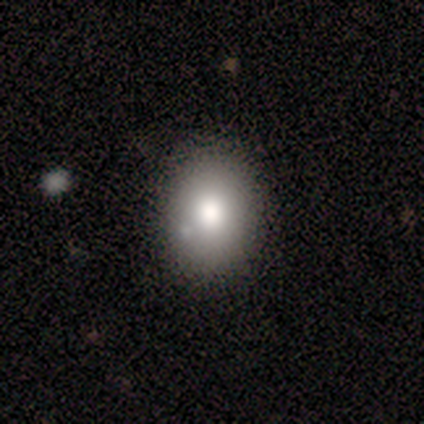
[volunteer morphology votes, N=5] Smooth or featured: featured or disk — 60% (smooth — 20%)
Edge-on disk: no — 100%
Bar: no — 67% (weak — 33%)
Spiral arms: no — 67% (yes — 33%)
Bulge size: large — 100%
Merging: none — 75% (merger — 25%)